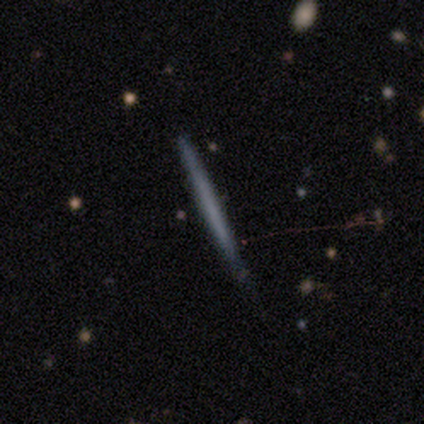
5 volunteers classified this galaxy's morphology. smooth-or-featured: smooth: 60% | featured or disk: 40% | star or artifact: 0%
  how-rounded: cigar-shaped: 100% | round: 0% | in between: 0%
  merging: none: 80% | minor disturbance: 20% | major disturbance: 0% | merger: 0%